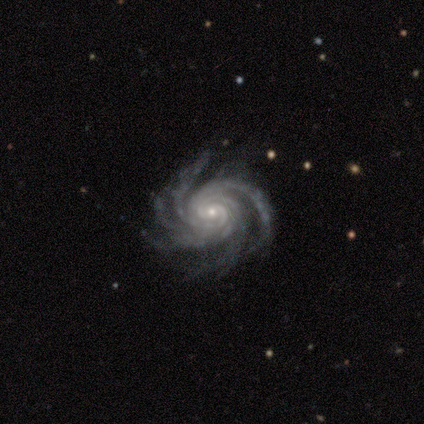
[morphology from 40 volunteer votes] This is clearly a featured or disk galaxy (100%). It is clearly not viewed edge-on (100%). Bar: likely no (72%). Spiral arm pattern: clearly yes (100%). Spiral arm count: likely more than 4 (78%). Spiral winding: clearly tight (80%). Central bulge: likely small (75%). Merging: clearly none (90%).